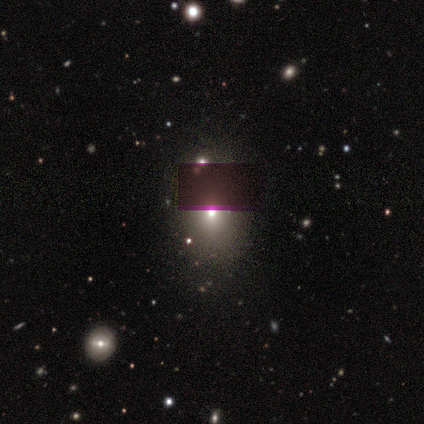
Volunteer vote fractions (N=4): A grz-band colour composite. It shows a smooth galaxy with no disk features (50%, tied with star or artifact) that is round (100%). Merging: none (100%).